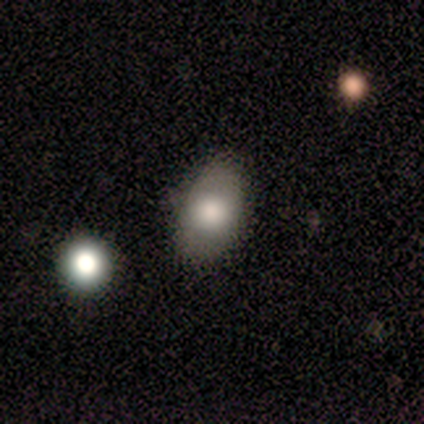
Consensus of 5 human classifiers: Smooth or featured: smooth — 40% (tied with featured or disk — 40%)
How rounded: round — 50% (tied with in between — 50%)
Merging: none — 50% (tied with minor disturbance — 50%)